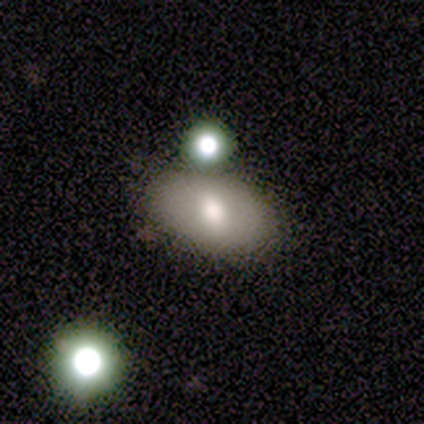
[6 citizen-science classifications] This appears to be a smooth galaxy with no disk features (83%) that is in between round and cigar-shaped (100%). Merging: none (100%).